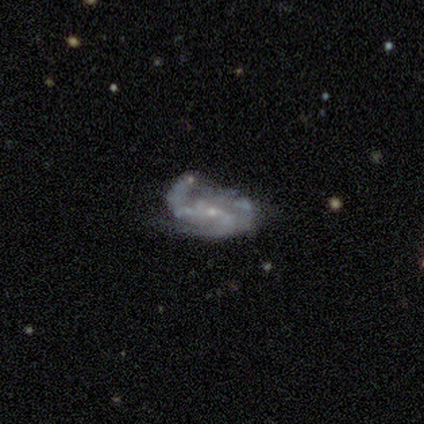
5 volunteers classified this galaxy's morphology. featured or disk 80%, smooth 20%, star or artifact 0%. Down the decision tree: edge-on disk — no (100%); bar — no (50%); spiral arms — yes (75%); spiral arm count — 2 (33%, tied with 3 and can't tell); spiral winding — medium (100%); bulge size — small (100%); merging — major disturbance (40%, tied with merger).